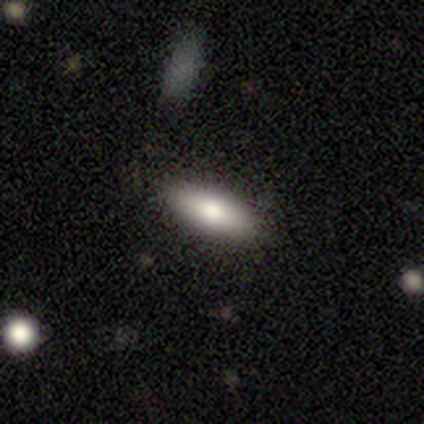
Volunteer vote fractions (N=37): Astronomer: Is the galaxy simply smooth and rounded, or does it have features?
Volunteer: smooth — 86%.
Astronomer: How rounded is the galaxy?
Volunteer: in between — 66%.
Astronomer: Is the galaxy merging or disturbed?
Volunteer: none — 83%.